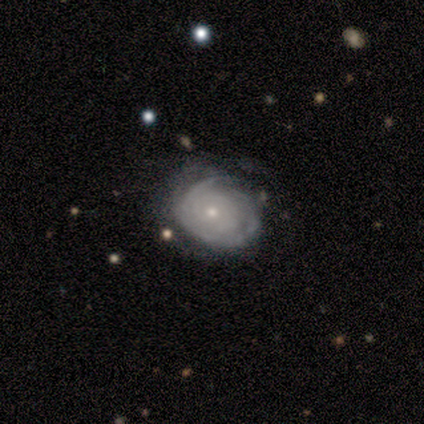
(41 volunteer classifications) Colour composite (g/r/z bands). It shows a featured or disk galaxy (80%) with no bar (97%), tight (84%) spiral arms (94%) and a small central bulge (58%). Merging: none (45%, tied with minor disturbance).